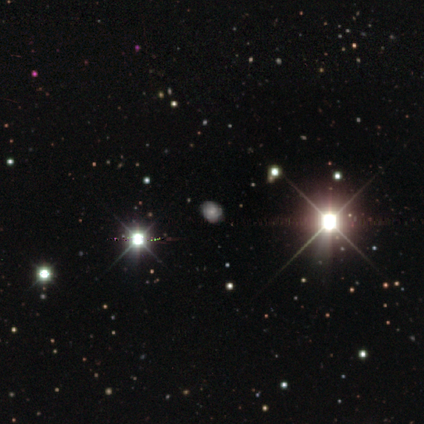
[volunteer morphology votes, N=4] Overall: featured or disk (50%, tied with star or artifact). Edge-on disk: no (100%). Bar: weak (50%, tied with no). Spiral arms: yes (50%, tied with no). Spiral arm count: can't tell (100%). Spiral winding: tight (100%). Bulge size: moderate (100%). Merging: none (100%).